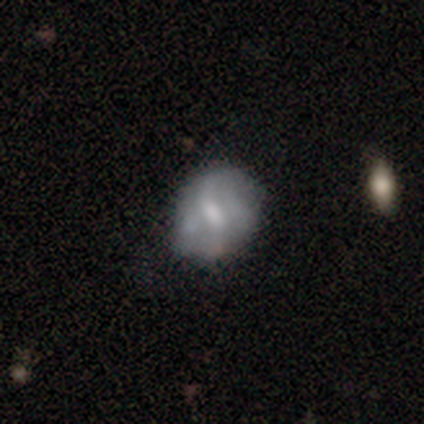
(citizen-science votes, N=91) Smooth or featured?
  - featured or disk: 57% *
  - smooth: 37%
  - star or artifact: 5%
Edge-on disk?
  - no: 98% *
  - yes: 2%
Bar?
  - weak: 47% *
  - no: 39%
  - strong: 14%
Spiral arms?
  - yes: 51% *
  - no: 49%
Spiral winding?
  - loose: 58% *
  - medium: 27%
  - tight: 15%
Spiral arm count?
  - 1: 31% * (tied)
  - 2: 31% * (tied)
  - can't tell: 31% * (tied)
  - 3: 4%
  - 4: 4%
  - more than 4: 0%
Bulge size?
  - moderate: 39% *
  - small: 37%
  - none: 14%
  - large: 10%
  - dominant: 0%
Merging?
  - none: 59% *
  - minor disturbance: 27%
  - major disturbance: 10%
  - merger: 3%